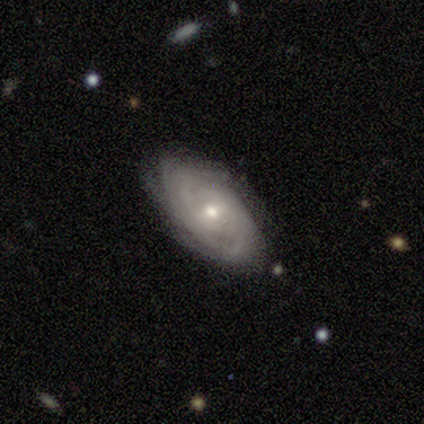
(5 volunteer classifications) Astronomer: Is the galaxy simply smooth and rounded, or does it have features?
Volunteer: featured or disk — 100%.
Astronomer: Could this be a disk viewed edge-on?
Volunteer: no — 100%.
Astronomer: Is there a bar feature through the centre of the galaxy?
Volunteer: no — 100%.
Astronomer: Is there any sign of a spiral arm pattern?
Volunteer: yes — 100%.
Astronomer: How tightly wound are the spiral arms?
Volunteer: tight — 100%.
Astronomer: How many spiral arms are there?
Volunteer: can't tell — 60%.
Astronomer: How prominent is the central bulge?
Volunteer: small — 80%.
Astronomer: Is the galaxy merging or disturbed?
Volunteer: none — 100%.